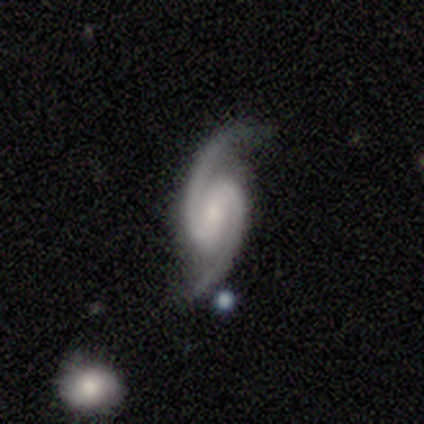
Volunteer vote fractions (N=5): This is clearly a featured or disk galaxy (100%). It is clearly not viewed edge-on (100%). Bar: likely strong (60%). Spiral arm pattern: clearly yes (100%). Spiral arm count: clearly 2 (100%). Spiral winding: likely medium (60%). Central bulge: clearly small (80%). Merging: clearly none (80%).